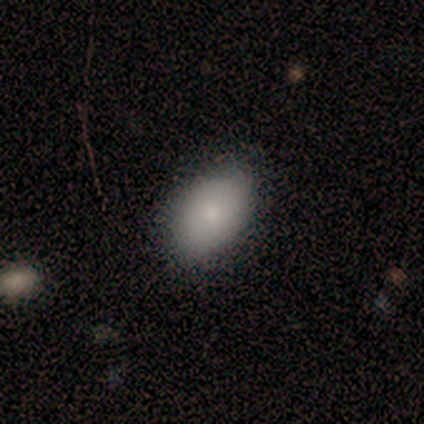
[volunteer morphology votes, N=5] smooth-or-featured: featured or disk: 60% | smooth: 40% | star or artifact: 0%
  disk-edge-on: no: 100% | yes: 0%
    bar: no: 100% | strong: 0% | weak: 0%
    has-spiral-arms: no: 100% | yes: 0%
    bulge-size: large: 33% (tied) | moderate: 33% (tied) | small: 33% (tied) | dominant: 0% | none: 0%
  merging: none: 60% | minor disturbance: 40% | major disturbance: 0% | merger: 0%